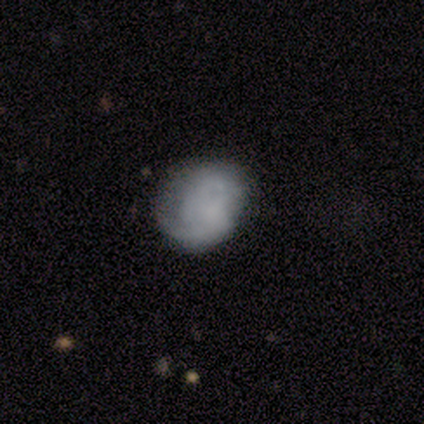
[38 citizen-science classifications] A smooth galaxy with no disk features (47%) that is round (67%). Merging: none (62%).